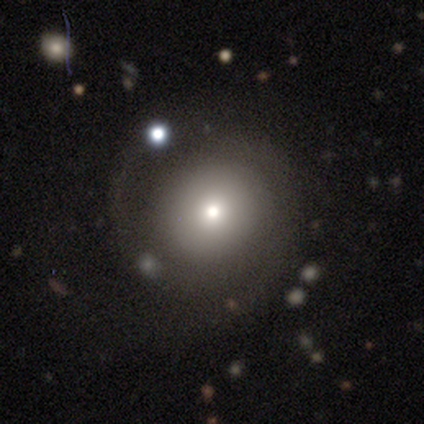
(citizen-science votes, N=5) Q: Smooth or featured?
A: smooth (40%); tied with: featured or disk (40%)
Q: How rounded?
A: round (100%)
Q: Merging?
A: none (100%)